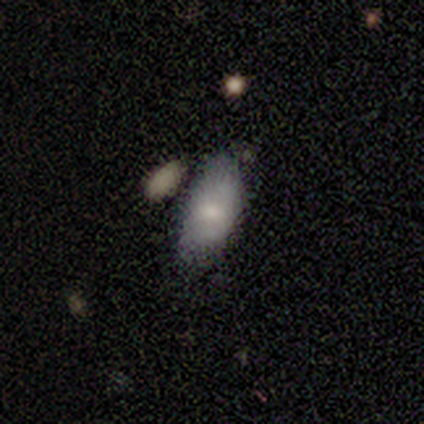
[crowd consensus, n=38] This appears to be a smooth galaxy with no disk features (66%) that is in between round and cigar-shaped (88%). Merging: minor disturbance (44%).